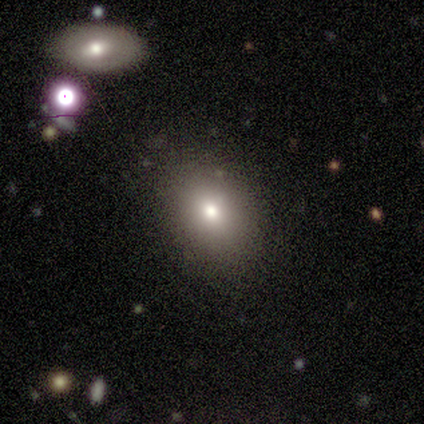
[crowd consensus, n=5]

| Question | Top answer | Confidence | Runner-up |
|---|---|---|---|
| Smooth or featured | smooth | 60% | featured or disk (20%) |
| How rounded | in between | 100% | — |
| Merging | none | 50% | tied: minor disturbance (50%) |